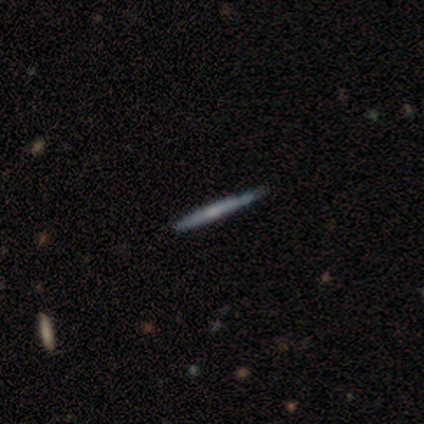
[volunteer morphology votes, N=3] smooth 67%, featured or disk 33%, star or artifact 0%. Down the decision tree: how rounded — cigar-shaped (100%); merging — minor disturbance (67%).